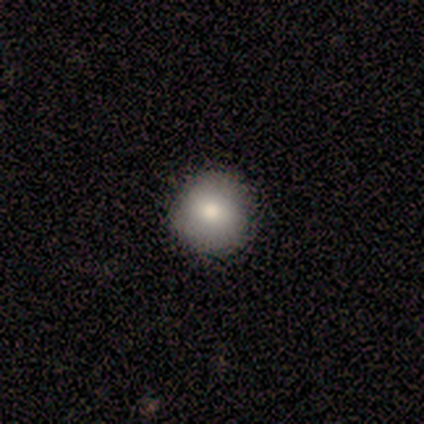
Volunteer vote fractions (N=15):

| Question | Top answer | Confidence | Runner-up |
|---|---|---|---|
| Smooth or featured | smooth | 73% | featured or disk (20%) |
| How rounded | round | 100% | — |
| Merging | none | 100% | — |